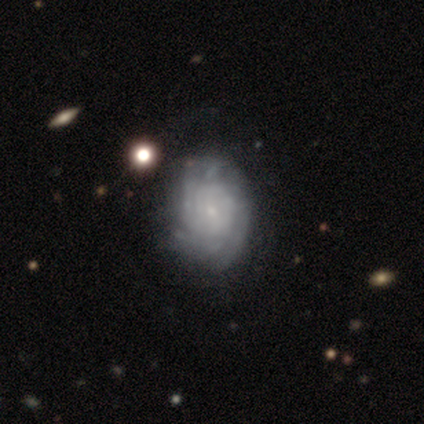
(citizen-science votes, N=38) smooth_or_featured: featured or disk (p=0.82) [alt: smooth p=0.18]
disk_edge_on: no (p=0.97) [alt: yes p=0.03]
bar: no (p=0.63) [alt: weak p=0.33]
has_spiral_arms: yes (p=0.83) [alt: no p=0.17]
spiral_winding: tight (p=0.84) [alt: medium p=0.16]
spiral_arm_count: can't tell (p=0.44) [alt: 4 p=0.20]
bulge_size: small (p=0.87) [alt: dominant p=0.03]
merging: none (p=0.34) [alt: minor disturbance p=0.21]